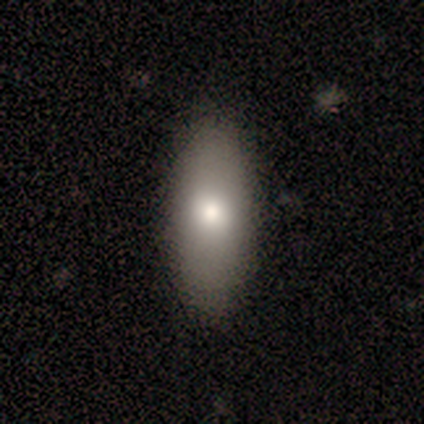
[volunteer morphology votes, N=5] Q: Smooth or featured?
A: smooth (80%); runner-up: featured or disk (20%)
Q: How rounded?
A: in between (50%); tied with: cigar-shaped (50%)
Q: Merging?
A: none (80%); runner-up: minor disturbance (20%)